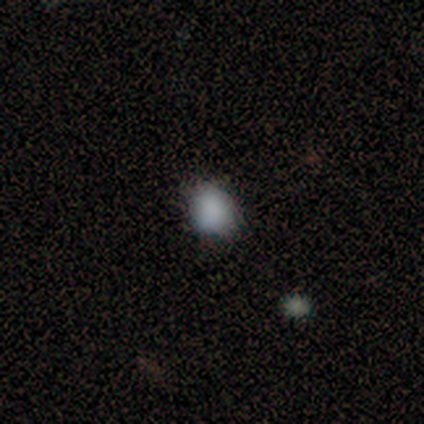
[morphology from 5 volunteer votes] type=smooth (100%); roundness=round (60%); merging=none (80%).